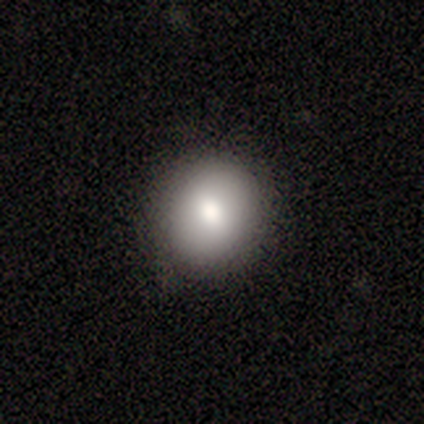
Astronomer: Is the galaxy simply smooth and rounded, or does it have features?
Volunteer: smooth — 100%.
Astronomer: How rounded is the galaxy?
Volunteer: round — 80%.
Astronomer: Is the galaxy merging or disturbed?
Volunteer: none — 100%.